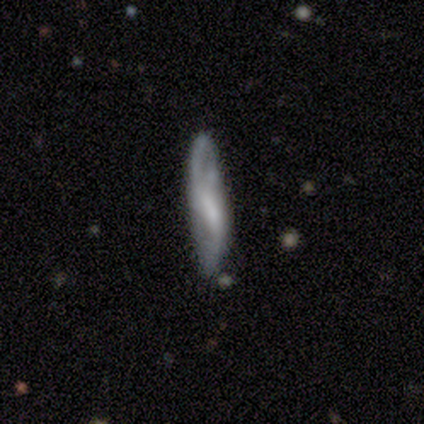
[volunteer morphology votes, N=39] Smooth or featured? featured or disk (72%)
Edge-on disk? yes (54%)
Edge-on bulge? rounded (40%)
Merging? none (70%)